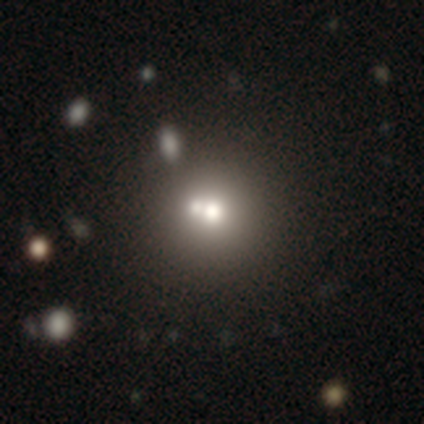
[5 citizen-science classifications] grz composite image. It shows a smooth galaxy with no disk features (80%) that is round (100%). Merging: none (60%).